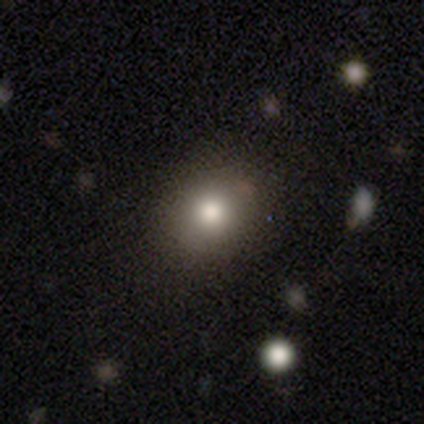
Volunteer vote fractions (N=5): Smooth or featured: smooth — 60% (featured or disk — 20%)
How rounded: round — 67% (in between — 33%)
Merging: none — 75% (minor disturbance — 25%)